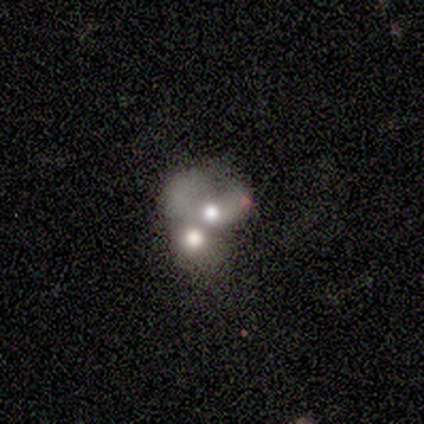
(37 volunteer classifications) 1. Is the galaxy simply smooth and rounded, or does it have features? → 41% smooth (tied), 41% featured or disk (tied), 19% star or artifact.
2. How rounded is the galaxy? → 53% round, 47% in between, 0% cigar-shaped.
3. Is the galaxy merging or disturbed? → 83% merger, 10% none, 7% minor disturbance, 0% major disturbance.